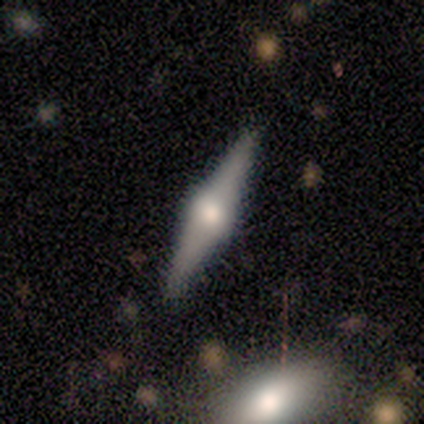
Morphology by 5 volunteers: A smooth galaxy with no disk features (80%) that is cigar-shaped (75%).

Vote fractions:
- Smooth or featured? smooth: 80% / featured or disk: 20% / star or artifact: 0%
- How rounded? cigar-shaped: 75% / in between: 25% / round: 0%
- Merging? none: 60% / minor disturbance: 20% / major disturbance: 20% / merger: 0%